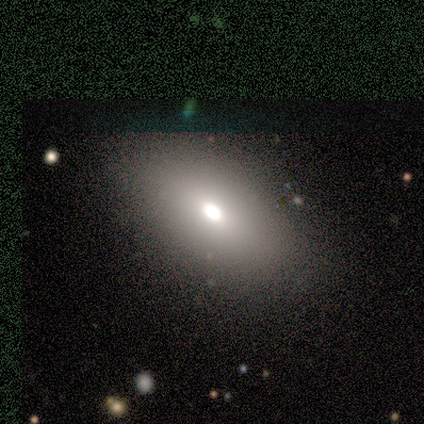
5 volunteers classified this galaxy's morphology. Smooth or featured? 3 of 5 (60%) said smooth. How rounded? 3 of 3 (100%) said in between. Merging? 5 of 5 (100%) said none.